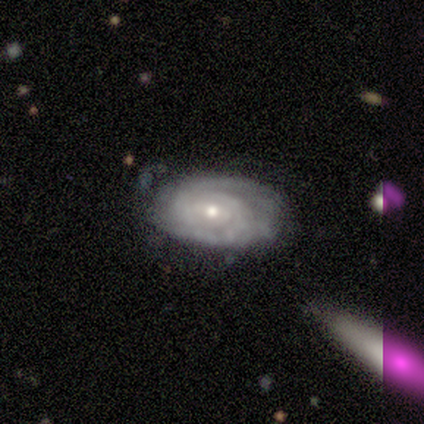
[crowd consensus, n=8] Q: Smooth or featured?
A: featured or disk (100%)
Q: Edge-on disk?
A: no (100%)
Q: Bar?
A: weak (62%); runner-up: no (38%)
Q: Spiral arms?
A: yes (100%)
Q: Spiral winding?
A: tight (62%); runner-up: medium (25%)
Q: Spiral arm count?
A: 2 (62%); runner-up: can't tell (38%)
Q: Bulge size?
A: small (62%); runner-up: moderate (25%)
Q: Merging?
A: minor disturbance (62%); runner-up: none (38%)